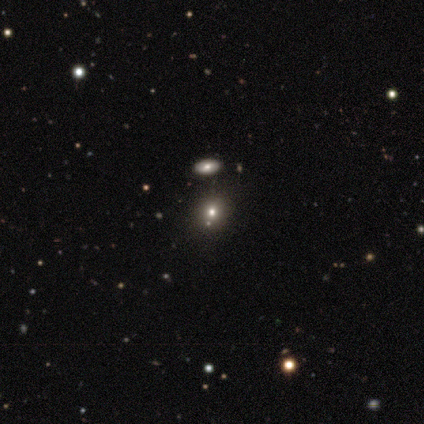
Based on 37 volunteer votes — Smooth or featured?
  - smooth: 68% *
  - star or artifact: 30%
  - featured or disk: 3%
How rounded?
  - round: 68% *
  - in between: 32%
  - cigar-shaped: 0%
Merging?
  - none: 96% *
  - minor disturbance: 4%
  - major disturbance: 0%
  - merger: 0%